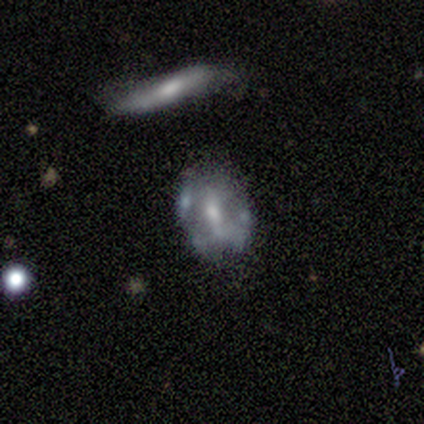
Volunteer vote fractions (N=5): Volunteers were most divided on "bar" (3-way tie): strong: 33%, weak: 33%, no: 33%; "bulge size" (3-way tie): moderate: 33%, small: 33%, none: 33%, dominant: 0%, large: 0%. More confident: edge-on disk — no (100%); merging — none (80%); spiral arms — no (67%); smooth or featured — featured or disk (60%).